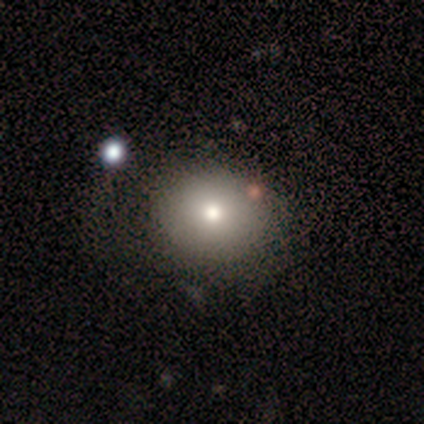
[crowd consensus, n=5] This appears to be a smooth galaxy with no disk features (100%) that is round (60%). Merging: none (100%).